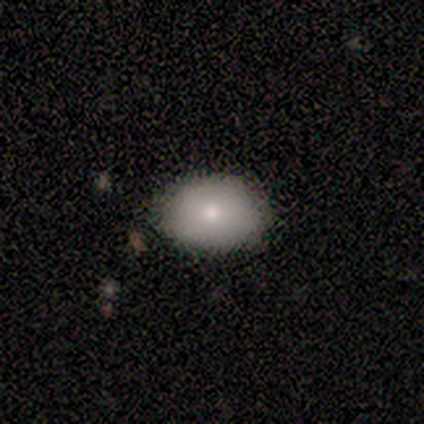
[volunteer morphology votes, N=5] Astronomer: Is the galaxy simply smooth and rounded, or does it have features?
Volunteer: smooth — 80%.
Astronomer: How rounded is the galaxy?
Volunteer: round — 50%, tied with in between at 50%.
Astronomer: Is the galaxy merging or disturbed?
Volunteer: none — 80%.